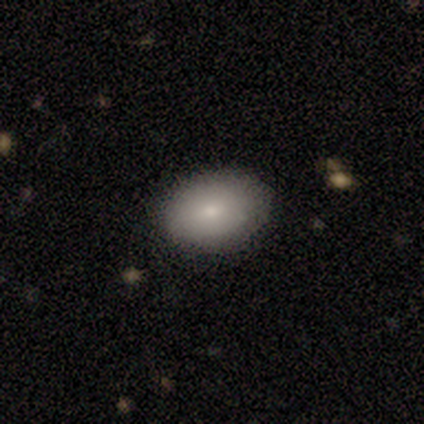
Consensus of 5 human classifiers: Smooth or featured: smooth — 60% (star or artifact — 40%)
How rounded: in between — 100%
Merging: none — 100%